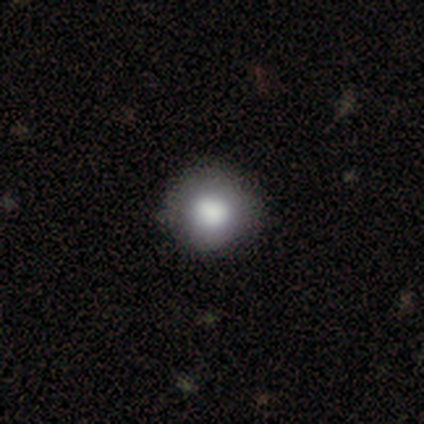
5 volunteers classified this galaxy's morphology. Volunteers were most divided on "how rounded": round: 80%, in between: 20%, cigar-shaped: 0%. More confident: smooth or featured — smooth (100%); merging — none (80%).